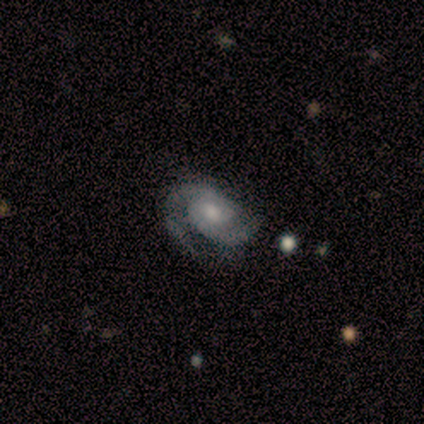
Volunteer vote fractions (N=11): smooth_or_featured: featured or disk (p=1.00)
disk_edge_on: no (p=0.91) [alt: yes p=0.09]
bar: no (p=0.70) [alt: weak p=0.30]
has_spiral_arms: yes (p=1.00)
spiral_winding: medium (p=0.70) [alt: tight p=0.30]
spiral_arm_count: 2 (p=1.00)
bulge_size: small (p=0.50) [alt: moderate p=0.40]
merging: none (p=0.64) [alt: minor disturbance p=0.27]